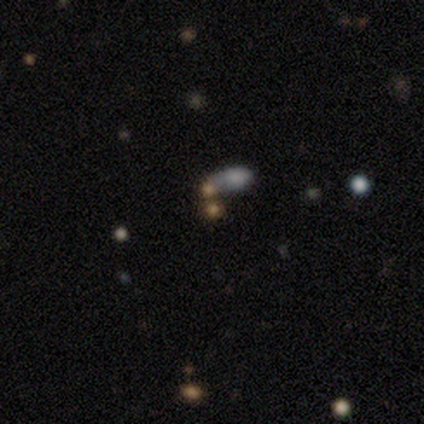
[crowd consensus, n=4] Overall: smooth (75%). How rounded: in between (100%). Merging: minor disturbance (33%, tied with major disturbance and merger).